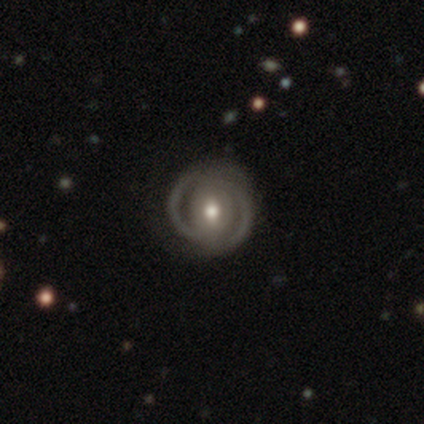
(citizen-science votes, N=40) featured or disk 82%, smooth 18%, star or artifact 0%. Down the decision tree: edge-on disk — no (97%); bar — weak (53%); spiral arms — yes (72%); spiral arm count — 2 (83%); spiral winding — tight (70%); bulge size — moderate (78%); merging — none (55%).